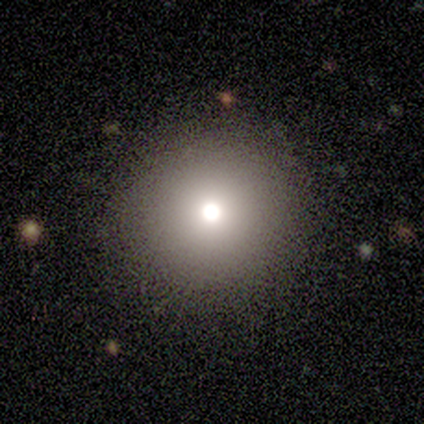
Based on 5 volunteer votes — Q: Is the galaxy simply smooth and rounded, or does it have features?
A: smooth — 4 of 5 (80%).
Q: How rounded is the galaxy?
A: round — 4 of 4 (100%).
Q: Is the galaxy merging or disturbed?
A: none — 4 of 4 (100%).